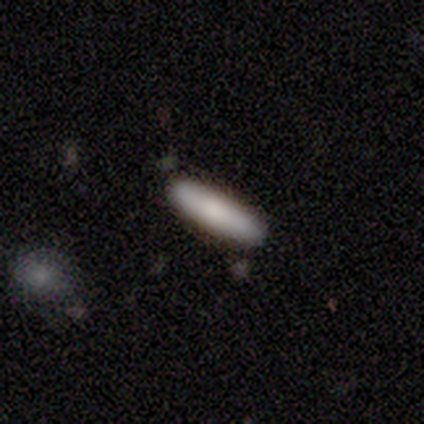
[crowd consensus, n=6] Overall: smooth (67%). How rounded: cigar-shaped (100%). Merging: none (80%).